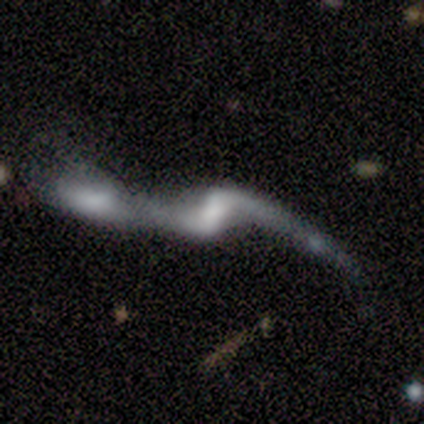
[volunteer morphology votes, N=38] Q: Smooth or featured?
A: featured or disk (79%); runner-up: smooth (13%)
Q: Edge-on disk?
A: no (93%); runner-up: yes (7%)
Q: Bar?
A: weak (50%); runner-up: strong (25%)
Q: Spiral arms?
A: yes (79%); runner-up: no (21%)
Q: Spiral winding?
A: loose (95%); runner-up: tight (5%)
Q: Spiral arm count?
A: 2 (95%); runner-up: can't tell (5%)
Q: Bulge size?
A: none (43%); runner-up: moderate (21%)
Q: Merging?
A: merger (66%); runner-up: none (20%)